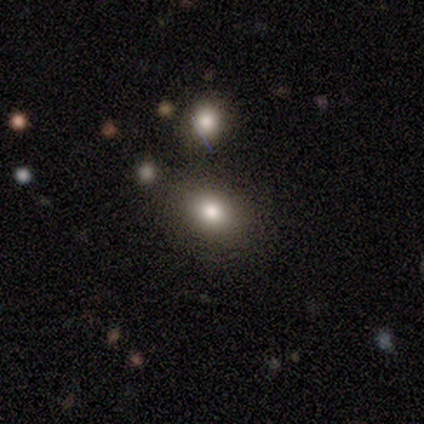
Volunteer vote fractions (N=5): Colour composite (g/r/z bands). It shows a smooth galaxy with no disk features (40%, tied with featured or disk) that is in between round and cigar-shaped (100%). Merging: none (100%).